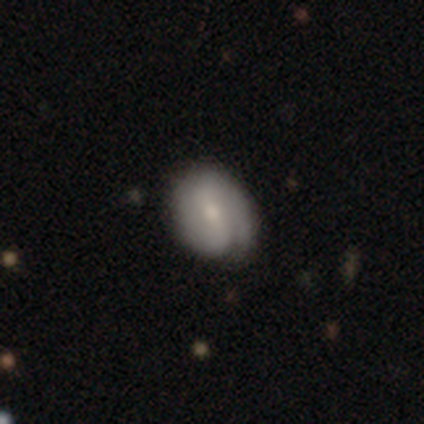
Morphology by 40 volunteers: Smooth or featured? featured or disk (75%)
Edge-on disk? no (100%)
Bar? no (37%)
Spiral arms? yes (87%)
Spiral winding? tight (54%)
Spiral arm count? 2 (77%)
Bulge size? moderate (47%)
Merging? none (72%)